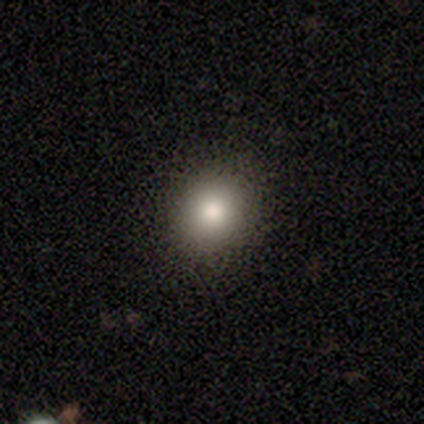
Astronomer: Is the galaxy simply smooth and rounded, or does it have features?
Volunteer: smooth — 60%.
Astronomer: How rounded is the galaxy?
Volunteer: round — 67%.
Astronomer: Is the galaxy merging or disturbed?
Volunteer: none — 75%.